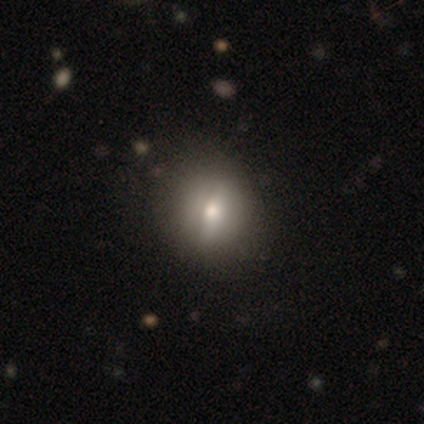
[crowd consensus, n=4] Morphology: type=smooth (50%); roundness=round (100%); merging=none (100%).